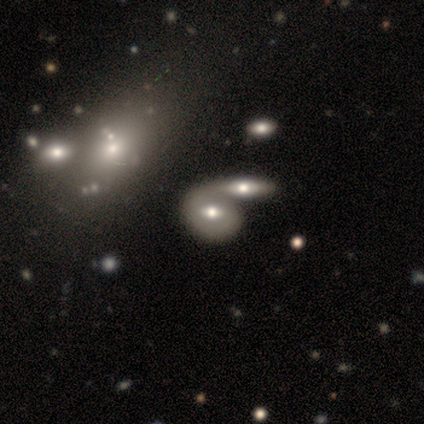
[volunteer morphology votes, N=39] smooth-or-featured: featured or disk: 62% | smooth: 31% | star or artifact: 8%
  disk-edge-on: no: 79% | yes: 21%
    bar: weak: 47% | no: 42% | strong: 11%
    has-spiral-arms: no: 74% | yes: 26%
    bulge-size: moderate: 74% | large: 26% | dominant: 0% | small: 0% | none: 0%
  merging: merger: 56% | none: 28% | minor disturbance: 8% | major disturbance: 0%